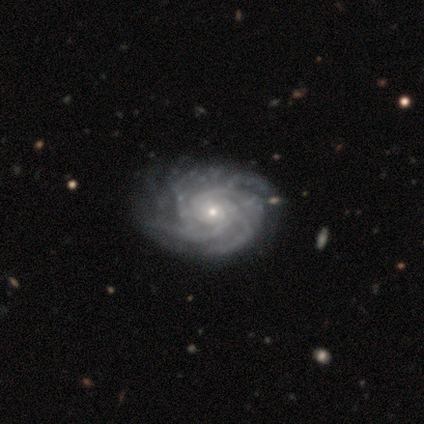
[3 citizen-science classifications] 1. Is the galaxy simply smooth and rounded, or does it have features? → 100% featured or disk, 0% smooth, 0% star or artifact.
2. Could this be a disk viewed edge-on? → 100% no, 0% yes.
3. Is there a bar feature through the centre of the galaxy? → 100% no, 0% strong, 0% weak.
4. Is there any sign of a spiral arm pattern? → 100% yes, 0% no.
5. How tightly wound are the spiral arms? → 100% tight, 0% medium, 0% loose.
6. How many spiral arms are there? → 33% 3 (tied), 33% 4 (tied), 33% more than 4 (tied), 0% 1, 0% 2, 0% can't tell.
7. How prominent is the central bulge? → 100% small, 0% dominant, 0% large, 0% moderate, 0% none.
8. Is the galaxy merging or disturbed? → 67% none, 33% minor disturbance, 0% major disturbance, 0% merger.